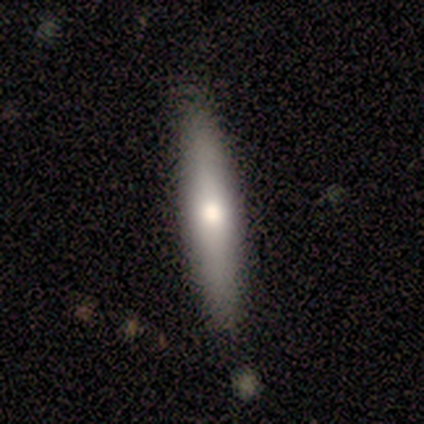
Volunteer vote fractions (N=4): Smooth or featured?
  - smooth: 50% *
  - featured or disk: 25%
  - star or artifact: 25%
How rounded?
  - cigar-shaped: 100% *
  - round: 0%
  - in between: 0%
Merging?
  - none: 67% *
  - minor disturbance: 33%
  - major disturbance: 0%
  - merger: 0%